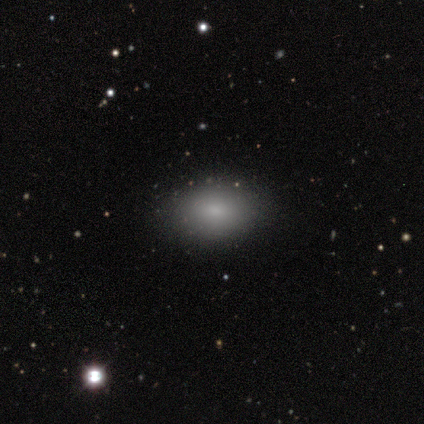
Smooth or featured? smooth (100%)
How rounded? in between (100%)
Merging? none (80%)